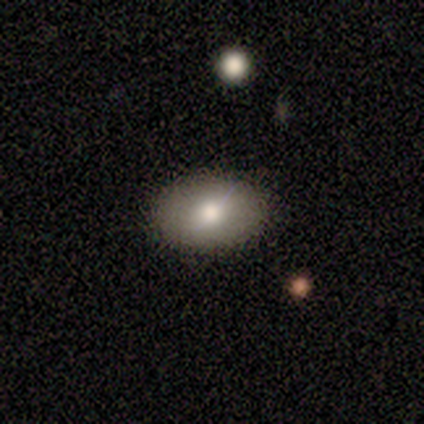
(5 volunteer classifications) Morphology: type=smooth (80%); roundness=in between (75%); merging=none (100%).